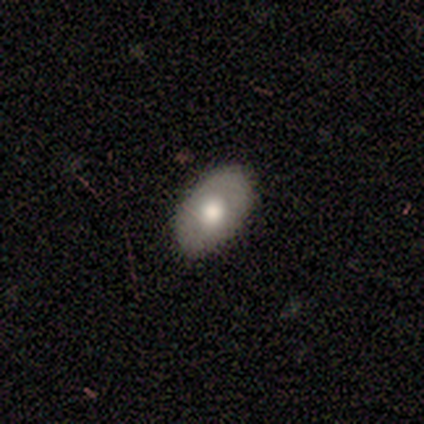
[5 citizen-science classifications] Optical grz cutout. It shows a smooth galaxy with no disk features (80%) that is in between round and cigar-shaped (100%). Merging: none (100%).